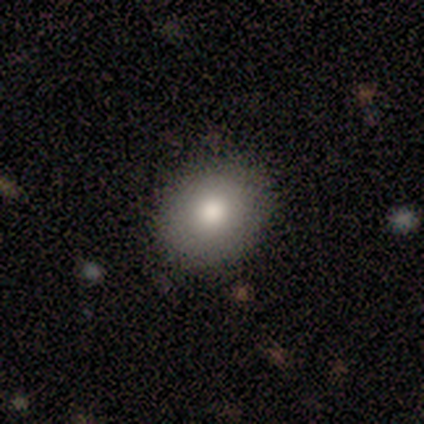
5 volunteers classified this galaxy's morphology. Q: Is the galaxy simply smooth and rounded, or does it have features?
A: smooth — 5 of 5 (100%).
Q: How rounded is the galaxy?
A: round — 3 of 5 (60%).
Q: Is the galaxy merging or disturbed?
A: none — 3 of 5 (60%).